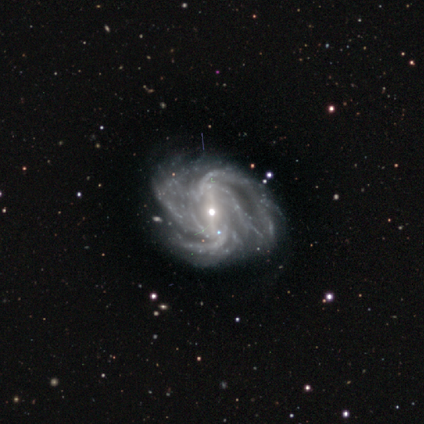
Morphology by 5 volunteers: smooth-or-featured: featured or disk: 80% | smooth: 20% | star or artifact: 0%
  disk-edge-on: no: 75% | yes: 25%
    bar: strong: 100% | weak: 0% | no: 0%
    has-spiral-arms: yes: 100% | no: 0%
      spiral-winding: tight: 67% | medium: 33% | loose: 0%
      spiral-arm-count: 4: 67% | more than 4: 33% | 1: 0% | 2: 0% | 3: 0% | can't tell: 0%
    bulge-size: small: 67% | moderate: 33% | dominant: 0% | large: 0% | none: 0%
  merging: none: 60% | major disturbance: 20% | merger: 20% | minor disturbance: 0%